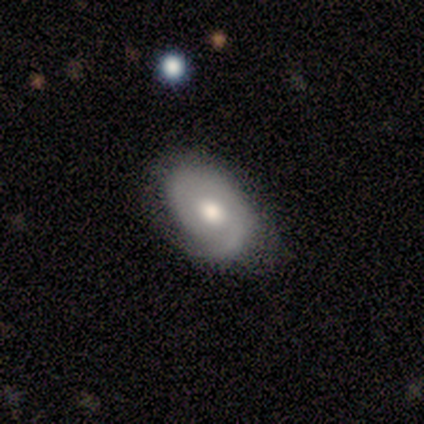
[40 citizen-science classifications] Smooth or featured? 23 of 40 (57%) said featured or disk. Edge-on disk? 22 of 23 (96%) said no. Bar? 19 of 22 (86%) said no. Spiral arms? 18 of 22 (82%) said yes. Spiral winding? 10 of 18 (56%) said tight. Spiral arm count? 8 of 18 (44%) said 2. Bulge size? 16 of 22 (73%) said moderate. Merging? 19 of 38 (50%) said minor disturbance.